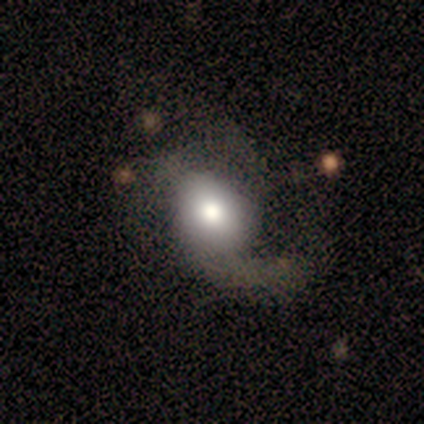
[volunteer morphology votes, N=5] A smooth galaxy with no disk features (60%) that is round (67%). Merging: major disturbance (100%).